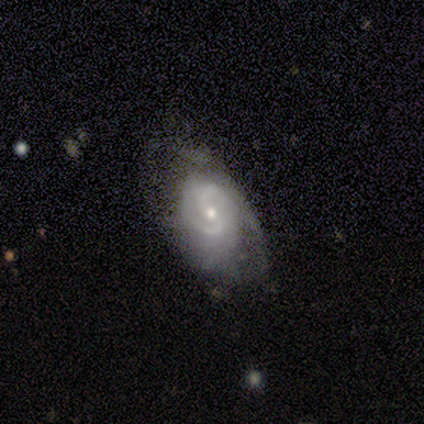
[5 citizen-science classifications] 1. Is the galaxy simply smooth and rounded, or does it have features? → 100% featured or disk, 0% smooth, 0% star or artifact.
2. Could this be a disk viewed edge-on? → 80% no, 20% yes.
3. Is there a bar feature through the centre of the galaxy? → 75% weak, 25% no, 0% strong.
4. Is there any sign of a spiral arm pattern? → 100% yes, 0% no.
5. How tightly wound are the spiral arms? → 75% tight, 25% loose, 0% medium.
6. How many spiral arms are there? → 50% 1, 25% 2, 25% can't tell, 0% 3, 0% 4, 0% more than 4.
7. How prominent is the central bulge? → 75% moderate, 25% small, 0% dominant, 0% large, 0% none.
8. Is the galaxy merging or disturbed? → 40% none (tied), 40% minor disturbance (tied), 20% major disturbance, 0% merger.